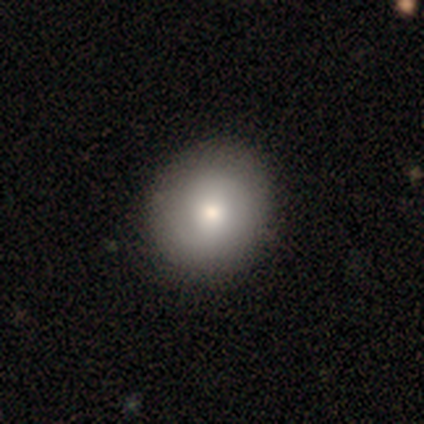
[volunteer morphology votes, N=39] smooth_or_featured: smooth (p=0.79) [alt: featured or disk p=0.18]
how_rounded: round (p=0.81) [alt: in between p=0.19]
merging: none (p=0.74) [alt: minor disturbance p=0.05]